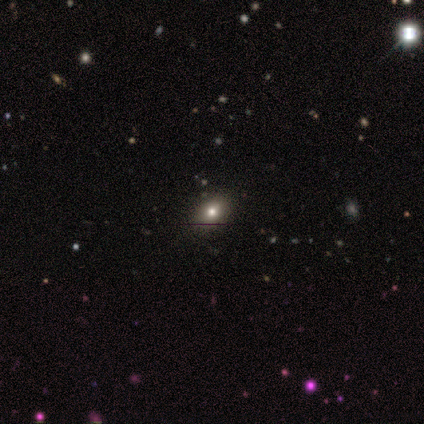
Smooth or featured?
  - smooth: 75% *
  - star or artifact: 25%
  - featured or disk: 0%
How rounded?
  - in between: 100% *
  - round: 0%
  - cigar-shaped: 0%
Merging?
  - none: 100% *
  - minor disturbance: 0%
  - major disturbance: 0%
  - merger: 0%